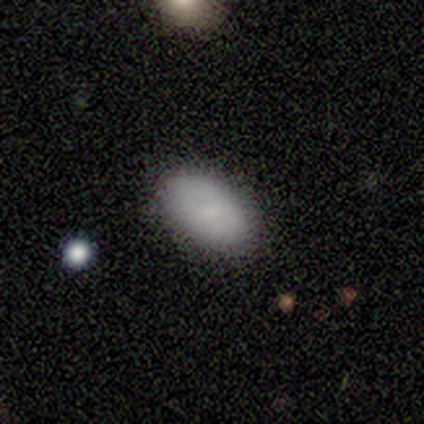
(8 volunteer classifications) smooth_or_featured: smooth (p=0.88) [alt: star or artifact p=0.12]
how_rounded: in between (p=1.00)
merging: none (p=0.71) [alt: major disturbance p=0.14]